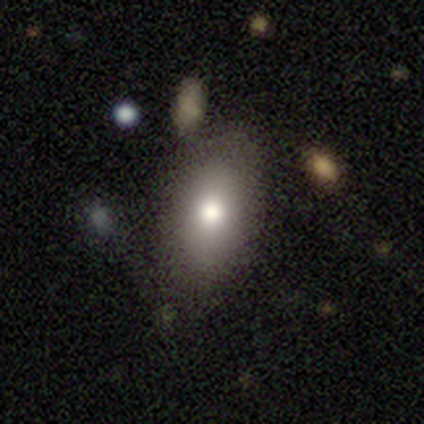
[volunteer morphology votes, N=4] Smooth or featured? 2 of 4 (50%) said featured or disk. Edge-on disk? 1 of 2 (50%, tied with no) said yes. Edge-on bulge? 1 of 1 (100%) said boxy. Merging? 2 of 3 (67%) said none.